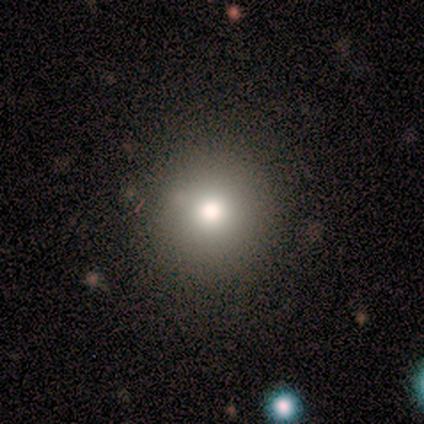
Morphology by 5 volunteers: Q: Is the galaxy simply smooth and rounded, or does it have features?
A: smooth — 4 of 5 (80%).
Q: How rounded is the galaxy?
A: round — 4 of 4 (100%).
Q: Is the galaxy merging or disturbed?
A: none — 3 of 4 (75%).